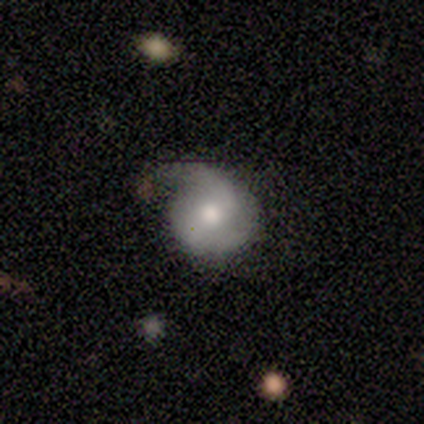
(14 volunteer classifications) A smooth galaxy with no disk features (71%) that is round (90%).

Vote fractions:
- Smooth or featured? smooth: 71% / featured or disk: 21% / star or artifact: 7%
- How rounded? round: 90% / in between: 10% / cigar-shaped: 0%
- Merging? major disturbance: 38% / none: 31% / minor disturbance: 31% / merger: 0%